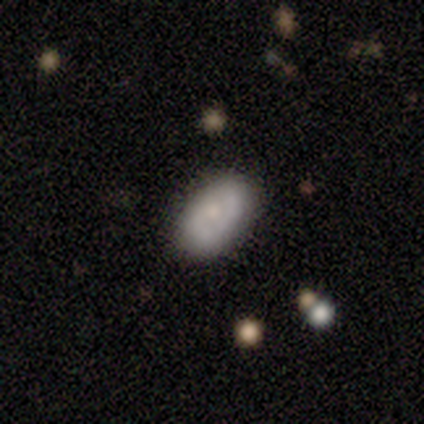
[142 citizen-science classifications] Smooth or featured: smooth — 56% (featured or disk — 42%)
How rounded: in between — 96% (round — 3%)
Merging: none — 88% (minor disturbance — 9%)